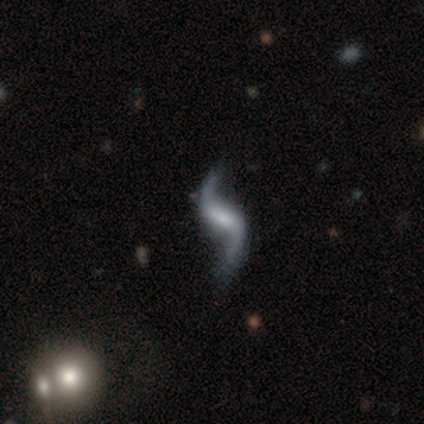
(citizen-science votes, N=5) This is clearly a featured or disk galaxy (100%). It is clearly not viewed edge-on (100%). Bar: likely weak (60%). Spiral arm pattern: clearly yes (100%). Spiral arm count: clearly 2 (100%). Spiral winding: clearly loose (80%). Central bulge: marginally moderate (40%). Merging: likely none (60%).